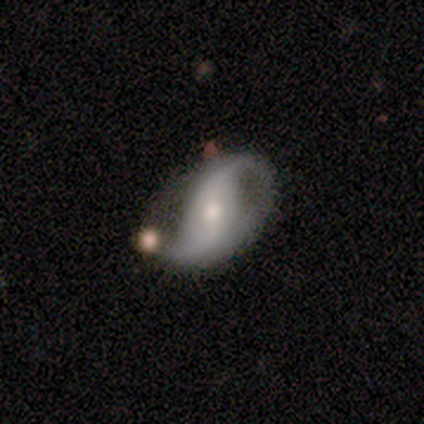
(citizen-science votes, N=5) smooth-or-featured: featured or disk: 100% | smooth: 0% | star or artifact: 0%
  disk-edge-on: no: 80% | yes: 20%
    bar: strong: 50% (tied) | no: 50% (tied) | weak: 0%
    has-spiral-arms: yes: 100% | no: 0%
      spiral-winding: medium: 50% (tied) | loose: 50% (tied) | tight: 0%
      spiral-arm-count: 2: 100% | 1: 0% | 3: 0% | 4: 0% | more than 4: 0% | can't tell: 0%
    bulge-size: moderate: 50% (tied) | small: 50% (tied) | dominant: 0% | large: 0% | none: 0%
  merging: none: 40% (tied) | minor disturbance: 40% (tied) | major disturbance: 20% | merger: 0%